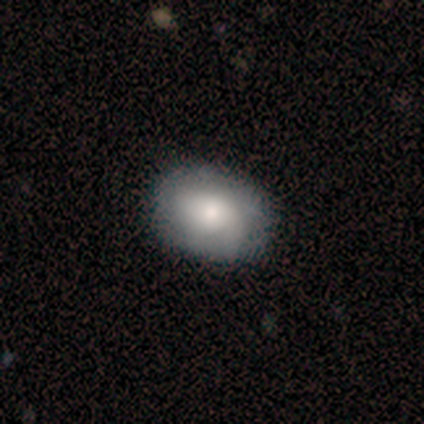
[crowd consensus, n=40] Overall: smooth (68%; featured or disk 30%). How rounded: in between (74%). Merging: none (82%).